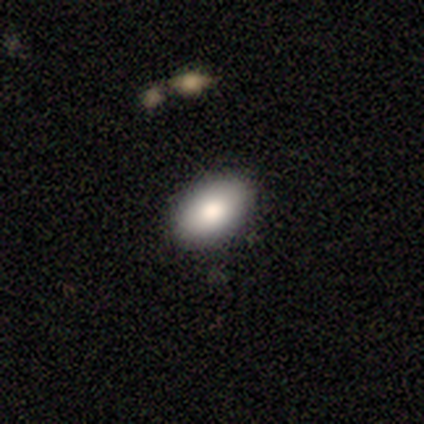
This is likely a smooth galaxy (60%). How rounded: clearly in between (100%). Merging: clearly none (80%).